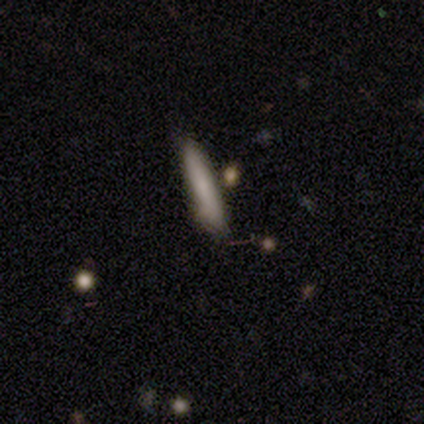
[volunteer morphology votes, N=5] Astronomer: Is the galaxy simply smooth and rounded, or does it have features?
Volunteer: smooth — 100%.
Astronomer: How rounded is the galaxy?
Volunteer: cigar-shaped — 80%.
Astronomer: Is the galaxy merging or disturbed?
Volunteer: none — 80%.